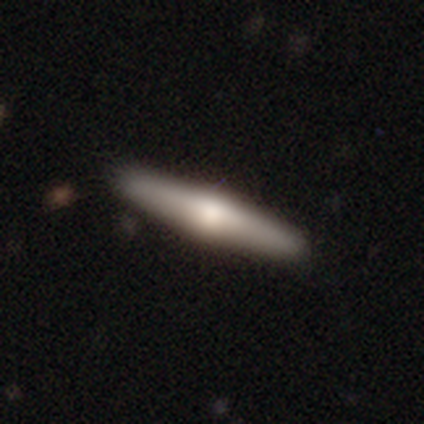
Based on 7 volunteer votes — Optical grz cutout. It shows a smooth galaxy with no disk features (57%) that is cigar-shaped (75%). Merging: none (86%).